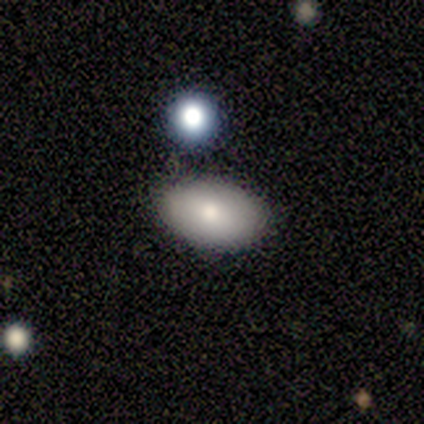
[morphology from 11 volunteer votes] A smooth galaxy with no disk features (82%) that is in between round and cigar-shaped (100%). Merging: none (64%).